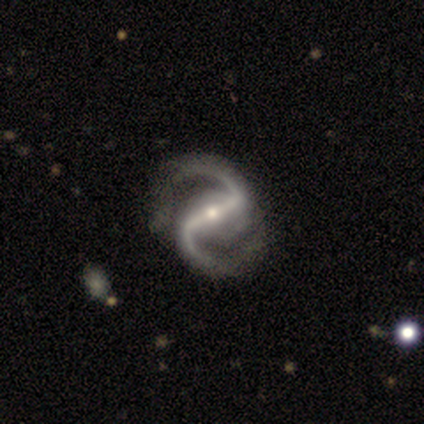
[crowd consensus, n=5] smooth_or_featured: featured or disk (p=1.00)
disk_edge_on: no (p=1.00)
bar: strong (p=1.00)
has_spiral_arms: yes (p=1.00)
spiral_winding: medium (p=0.60) [alt: tight p=0.20]
spiral_arm_count: 2 (p=1.00)
bulge_size: small (p=1.00)
merging: none (p=0.80) [alt: minor disturbance p=0.20]